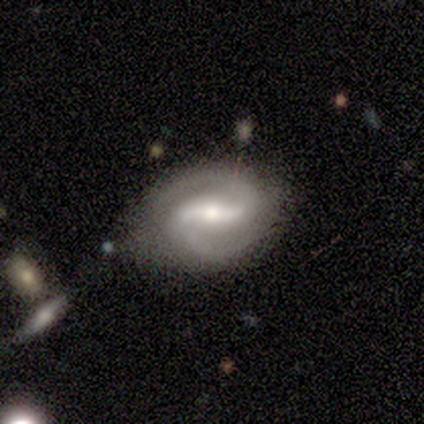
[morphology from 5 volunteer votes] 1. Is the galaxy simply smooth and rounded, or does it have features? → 100% featured or disk, 0% smooth, 0% star or artifact.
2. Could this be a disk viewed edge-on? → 100% no, 0% yes.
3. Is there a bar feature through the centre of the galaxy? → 60% strong, 40% weak, 0% no.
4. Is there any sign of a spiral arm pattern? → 100% yes, 0% no.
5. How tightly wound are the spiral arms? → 60% medium, 40% tight, 0% loose.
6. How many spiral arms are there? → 100% 2, 0% 1, 0% 3, 0% 4, 0% more than 4, 0% can't tell.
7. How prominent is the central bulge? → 60% moderate, 40% small, 0% dominant, 0% large, 0% none.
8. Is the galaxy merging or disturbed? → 80% none, 20% minor disturbance, 0% major disturbance, 0% merger.